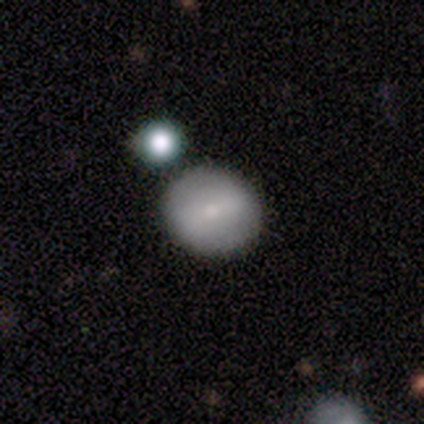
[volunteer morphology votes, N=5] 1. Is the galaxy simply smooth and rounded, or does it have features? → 100% smooth, 0% featured or disk, 0% star or artifact.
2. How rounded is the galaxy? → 100% round, 0% in between, 0% cigar-shaped.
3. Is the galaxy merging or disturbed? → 80% none, 20% minor disturbance, 0% major disturbance, 0% merger.